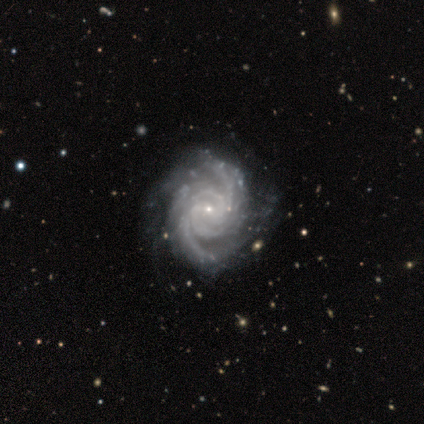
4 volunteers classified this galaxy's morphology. Smooth or featured? featured or disk (100%)
Edge-on disk? no (100%)
Bar? no (100%)
Spiral arms? yes (100%)
Spiral winding? medium (75%)
Spiral arm count? 4 (50%, tied with can't tell)
Bulge size? small (75%)
Merging? none (100%)